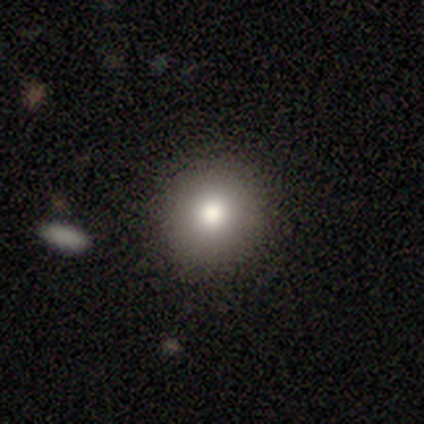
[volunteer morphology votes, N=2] Smooth or featured? 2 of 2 (100%) said smooth. How rounded? 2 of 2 (100%) said round. Merging? 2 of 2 (100%) said none.